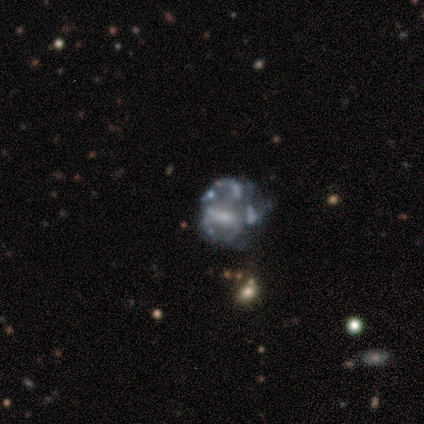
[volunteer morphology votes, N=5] Smooth or featured: featured or disk — 100%
Edge-on disk: no — 100%
Bar: no — 60% (strong — 20%)
Spiral arms: no — 80% (yes — 20%)
Bulge size: moderate — 40% (tied with none — 40%)
Merging: none — 60% (major disturbance — 20%)